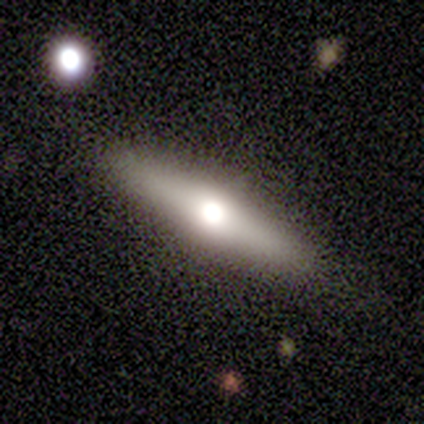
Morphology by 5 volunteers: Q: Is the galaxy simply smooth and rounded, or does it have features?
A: smooth — 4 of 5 (80%).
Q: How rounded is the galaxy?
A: in between — 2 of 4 (50%).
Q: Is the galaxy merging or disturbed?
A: none — 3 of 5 (60%).